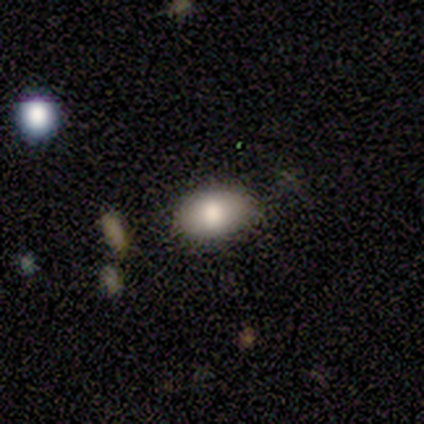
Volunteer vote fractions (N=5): Q: Smooth or featured?
A: smooth (60%); runner-up: featured or disk (20%)
Q: How rounded?
A: in between (100%)
Q: Merging?
A: none (100%)